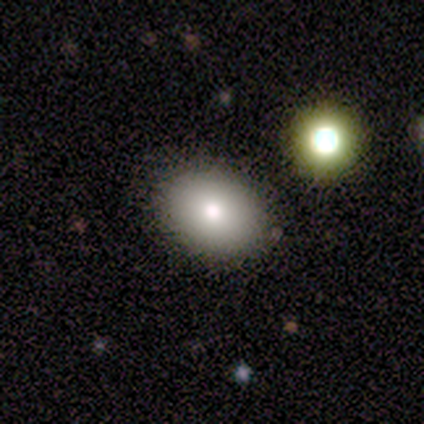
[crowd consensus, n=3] A featured or disk galaxy (67%) with a weak bar (50%, tied with no), no spiral arms (100%) and a moderate central bulge (50%, tied with small).

Vote fractions:
- Smooth or featured? featured or disk: 67% / smooth: 33% / star or artifact: 0%
- Edge-on disk? no: 100% / yes: 0%
- Bar? weak: 50% (tied) / no: 50% (tied) / strong: 0%
- Spiral arms? no: 100% / yes: 0%
- Bulge size? moderate: 50% (tied) / small: 50% (tied) / dominant: 0% / large: 0% / none: 0%
- Merging? none: 100% / minor disturbance: 0% / major disturbance: 0% / merger: 0%